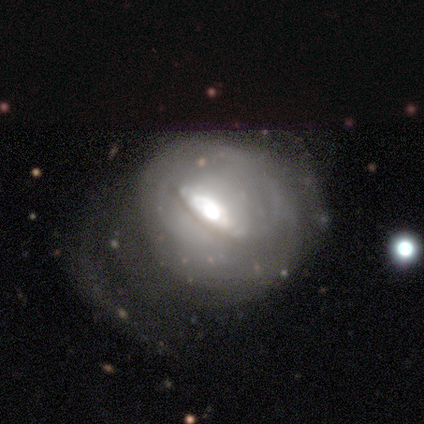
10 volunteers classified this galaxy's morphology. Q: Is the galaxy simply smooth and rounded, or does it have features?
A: featured or disk — 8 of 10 (80%).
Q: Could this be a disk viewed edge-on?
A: no — 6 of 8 (75%).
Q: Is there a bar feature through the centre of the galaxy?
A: strong — 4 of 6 (67%).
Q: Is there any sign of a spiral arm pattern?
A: yes — 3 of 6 (50%, tied with no).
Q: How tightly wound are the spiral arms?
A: medium — 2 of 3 (67%).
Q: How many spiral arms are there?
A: can't tell — 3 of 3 (100%).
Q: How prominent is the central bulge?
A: large — 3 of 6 (50%, tied with moderate).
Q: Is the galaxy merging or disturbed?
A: none — 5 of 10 (50%).